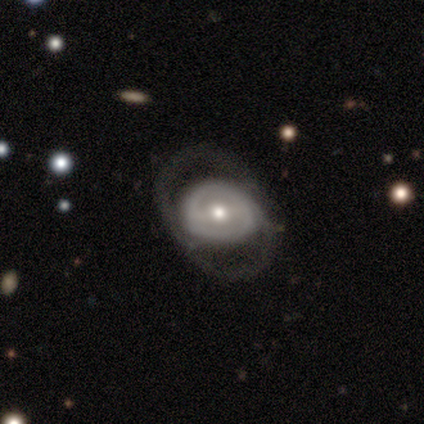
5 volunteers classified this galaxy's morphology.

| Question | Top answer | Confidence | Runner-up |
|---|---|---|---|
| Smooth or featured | featured or disk | 60% | smooth (40%) |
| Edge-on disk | no | 100% | — |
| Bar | strong | 67% | no (33%) |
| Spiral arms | yes | 100% | — |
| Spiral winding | medium | 67% | loose (33%) |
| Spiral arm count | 2 | 67% | 1 (33%) |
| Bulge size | moderate | 67% | large (33%) |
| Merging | none | 60% | minor disturbance (20%) |